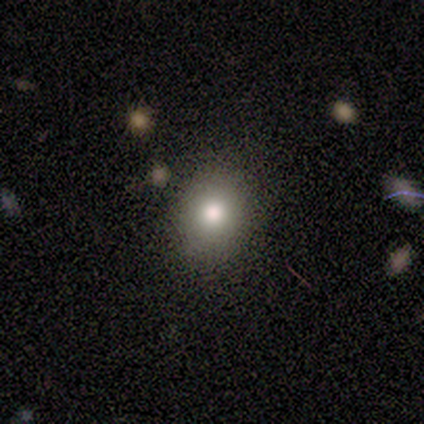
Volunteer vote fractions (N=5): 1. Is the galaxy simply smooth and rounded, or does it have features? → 60% smooth, 40% featured or disk, 0% star or artifact.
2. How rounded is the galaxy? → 67% round, 33% in between, 0% cigar-shaped.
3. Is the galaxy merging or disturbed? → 60% minor disturbance, 40% none, 0% major disturbance, 0% merger.